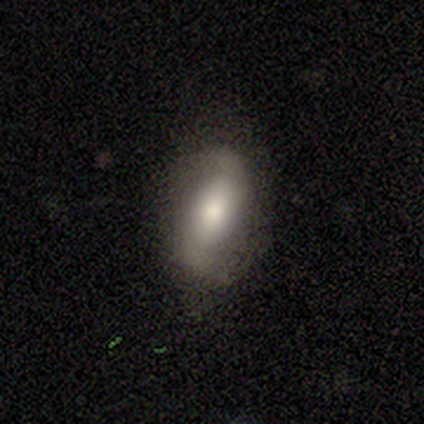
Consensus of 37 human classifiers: Smooth or featured? 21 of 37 (57%) said featured or disk. Edge-on disk? 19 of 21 (90%) said no. Bar? 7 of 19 (37%) said no. Spiral arms? 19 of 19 (100%) said yes. Spiral winding? 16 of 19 (84%) said loose. Spiral arm count? 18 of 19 (95%) said 2. Bulge size? 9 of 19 (47%) said moderate. Merging? 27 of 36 (75%) said none.